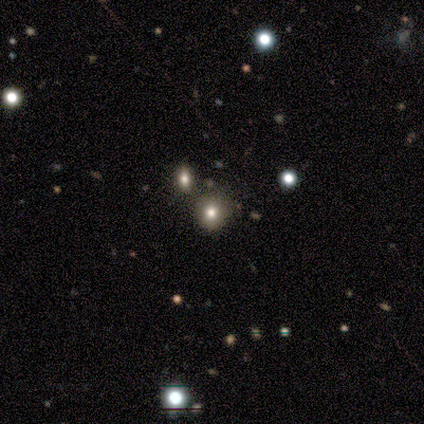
smooth-or-featured: smooth: 62% | star or artifact: 38% | featured or disk: 0%
  how-rounded: round: 100% | in between: 0% | cigar-shaped: 0%
  merging: none: 88% | merger: 12% | minor disturbance: 0% | major disturbance: 0%